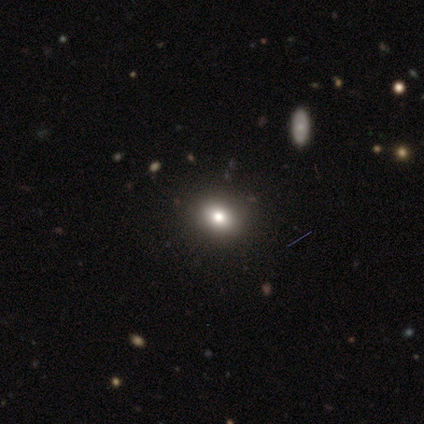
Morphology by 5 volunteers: smooth 60%, featured or disk 20%, star or artifact 20%. Down the decision tree: how rounded — in between (100%); merging — none (100%).